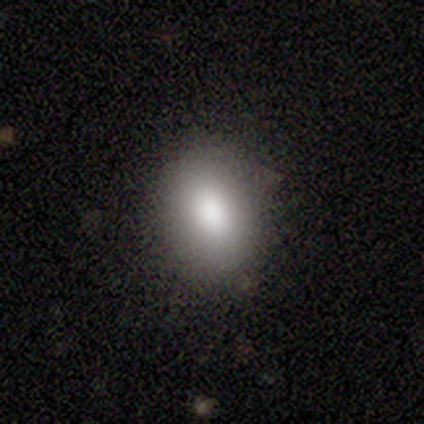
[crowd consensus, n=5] Smooth or featured? 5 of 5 (100%) said smooth. How rounded? 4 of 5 (80%) said in between. Merging? 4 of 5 (80%) said none.